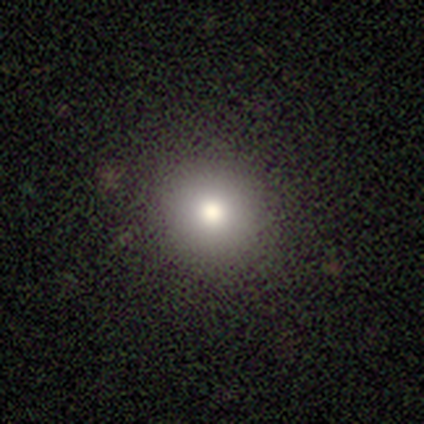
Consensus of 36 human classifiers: Smooth or featured? smooth (75%)
How rounded? round (93%)
Merging? none (85%)